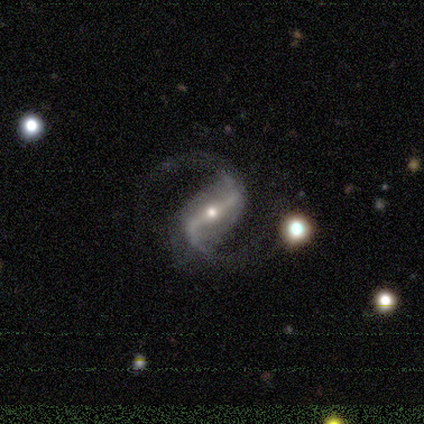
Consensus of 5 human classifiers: smooth-or-featured: featured or disk: 80% | star or artifact: 20% | smooth: 0%
  disk-edge-on: no: 100% | yes: 0%
    bar: strong: 75% | weak: 25% | no: 0%
    has-spiral-arms: yes: 100% | no: 0%
      spiral-winding: medium: 50% (tied) | loose: 50% (tied) | tight: 0%
      spiral-arm-count: 2: 75% | 1: 25% | 3: 0% | 4: 0% | more than 4: 0% | can't tell: 0%
    bulge-size: small: 75% | moderate: 25% | dominant: 0% | large: 0% | none: 0%
  merging: none: 75% | merger: 25% | minor disturbance: 0% | major disturbance: 0%